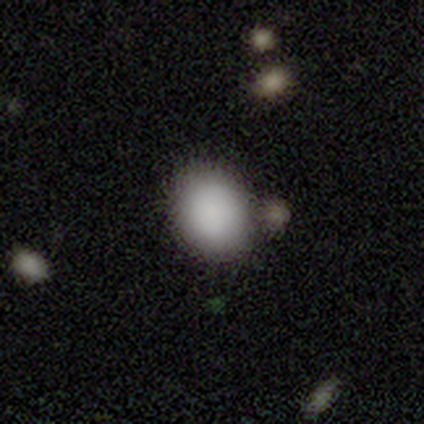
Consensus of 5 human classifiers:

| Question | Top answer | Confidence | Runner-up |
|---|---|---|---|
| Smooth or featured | smooth | 80% | featured or disk (20%) |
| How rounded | in between | 75% | round (25%) |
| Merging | none | 80% | merger (20%) |